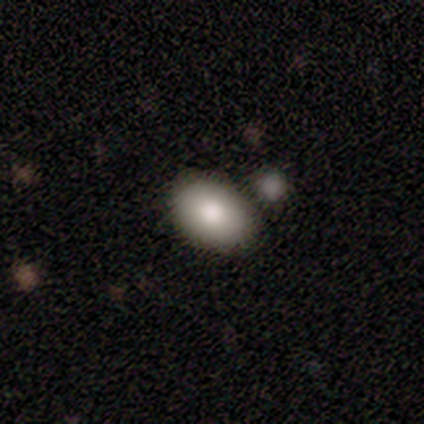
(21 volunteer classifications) This appears to be a smooth galaxy with no disk features (86%) that is in between round and cigar-shaped (94%). Merging: none (100%).